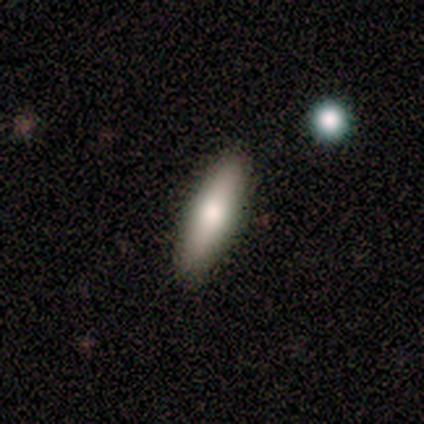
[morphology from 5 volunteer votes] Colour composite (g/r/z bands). It shows a smooth galaxy with no disk features (80%) that is in between round and cigar-shaped (75%). Merging: none (100%).